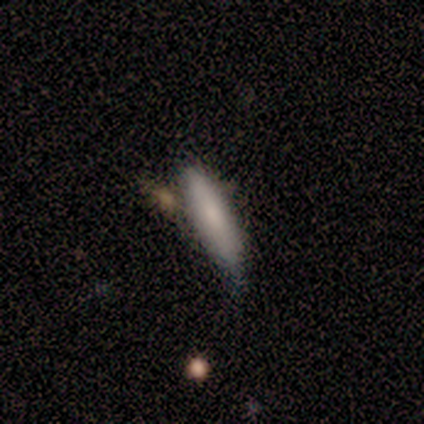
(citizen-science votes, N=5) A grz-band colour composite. It shows a smooth galaxy with no disk features (100%) that is cigar-shaped (100%). Merging: minor disturbance (60%).